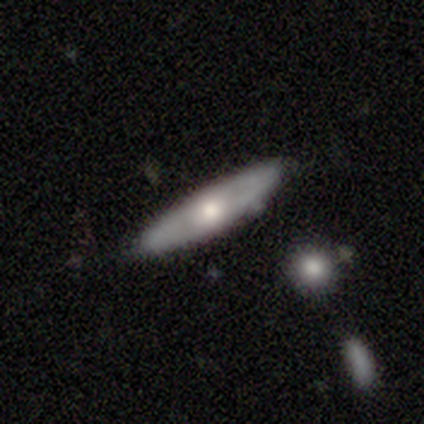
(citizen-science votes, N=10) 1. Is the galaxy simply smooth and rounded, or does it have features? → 40% smooth (tied), 40% featured or disk (tied), 20% star or artifact.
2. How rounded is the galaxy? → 75% cigar-shaped, 25% in between, 0% round.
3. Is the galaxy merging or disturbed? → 75% none, 12% minor disturbance, 12% merger, 0% major disturbance.